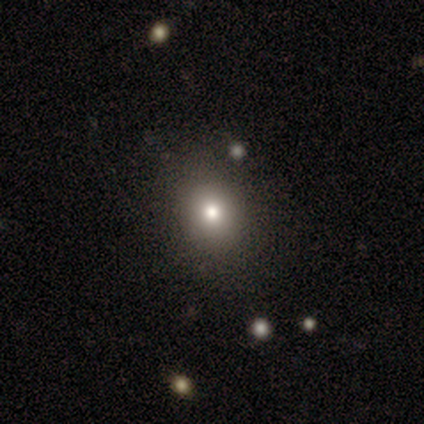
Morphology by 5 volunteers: smooth 60%, featured or disk 20%, star or artifact 20%. Down the decision tree: how rounded — in between (67%); merging — none (100%).